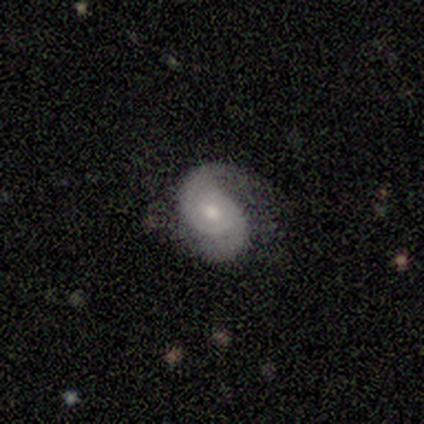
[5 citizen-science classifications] Smooth or featured: featured or disk — 60% (smooth — 40%)
Edge-on disk: no — 100%
Bar: no — 100%
Spiral arms: yes — 100%
Spiral winding: tight — 67% (medium — 33%)
Spiral arm count: 2 — 67% (1 — 33%)
Bulge size: small — 67% (moderate — 33%)
Merging: none — 60% (minor disturbance — 20%)